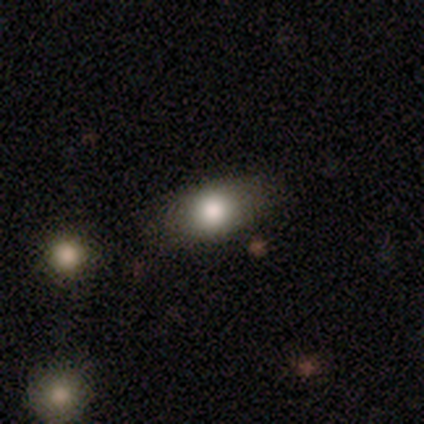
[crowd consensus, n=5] Q: Smooth or featured?
A: smooth (60%); runner-up: featured or disk (20%)
Q: How rounded?
A: in between (67%); runner-up: round (33%)
Q: Merging?
A: none (75%); runner-up: minor disturbance (25%)